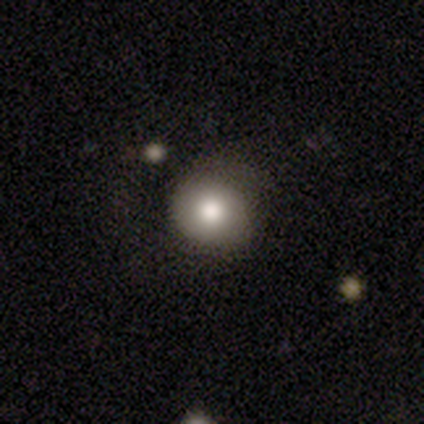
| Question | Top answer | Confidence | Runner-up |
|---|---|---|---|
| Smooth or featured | smooth | 82% | featured or disk (18%) |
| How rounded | round | 100% | — |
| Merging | none | 73% | major disturbance (18%) |